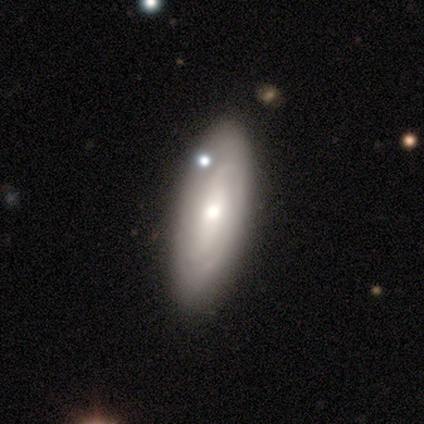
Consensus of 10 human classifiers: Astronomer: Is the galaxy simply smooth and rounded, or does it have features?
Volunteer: featured or disk — 60%.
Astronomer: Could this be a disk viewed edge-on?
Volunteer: no — 100%.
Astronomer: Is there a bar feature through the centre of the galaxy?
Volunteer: weak — 50% (runner-up: no, 33%).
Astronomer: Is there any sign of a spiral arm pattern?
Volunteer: yes — 67%.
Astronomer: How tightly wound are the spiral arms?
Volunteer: loose — 50%.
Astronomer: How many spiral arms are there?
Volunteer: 2 — 75%.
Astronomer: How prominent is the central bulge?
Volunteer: moderate — 100%.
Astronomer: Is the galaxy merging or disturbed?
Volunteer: none — 89%.